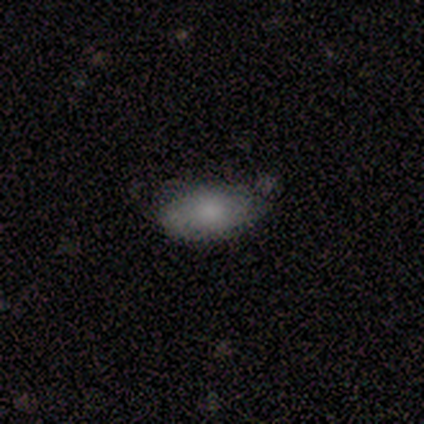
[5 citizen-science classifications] This is clearly a smooth galaxy (80%). How rounded: clearly in between (100%). Merging: clearly none (100%).